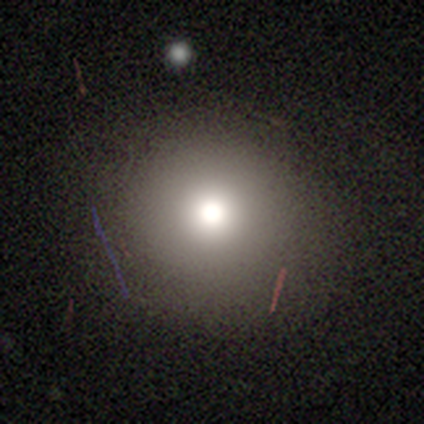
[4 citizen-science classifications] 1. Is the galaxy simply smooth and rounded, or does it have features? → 100% smooth, 0% featured or disk, 0% star or artifact.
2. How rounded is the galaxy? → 100% round, 0% in between, 0% cigar-shaped.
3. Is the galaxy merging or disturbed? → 75% none, 25% minor disturbance, 0% major disturbance, 0% merger.